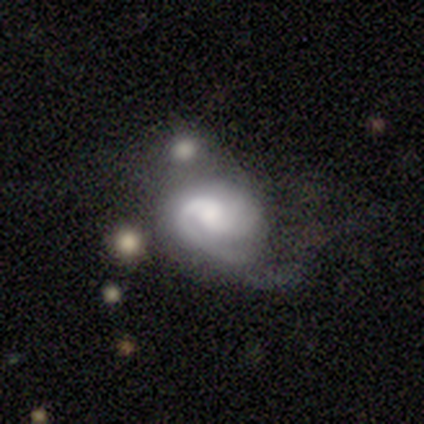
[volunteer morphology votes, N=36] Smooth or featured? featured or disk (81%)
Edge-on disk? no (100%)
Bar? no (62%)
Spiral arms? yes (90%)
Spiral winding? medium (50%)
Spiral arm count? 2 (38%)
Bulge size? moderate (48%)
Merging? major disturbance (35%)